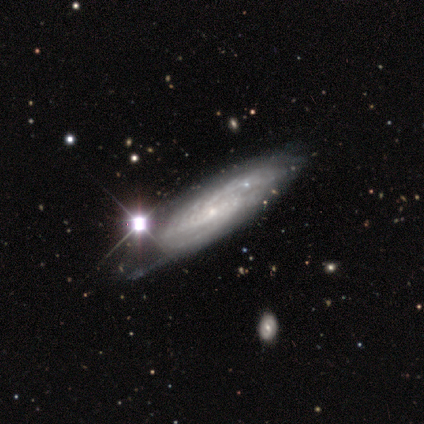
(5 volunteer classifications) smooth_or_featured: featured or disk (p=0.60) [alt: smooth p=0.40]
disk_edge_on: no (p=0.67) [alt: yes p=0.33]
bar: weak (p=0.50) [tied with: no p=0.50]
has_spiral_arms: yes (p=1.00)
spiral_winding: tight (p=1.00)
spiral_arm_count: 2 (p=0.50) [tied with: can't tell p=0.50]
bulge_size: small (p=1.00)
merging: none (p=0.80) [alt: minor disturbance p=0.20]